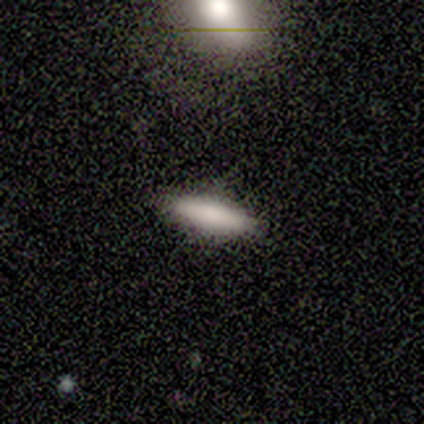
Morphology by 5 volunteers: This is likely a smooth galaxy (60%). How rounded: likely cigar-shaped (67%). Merging: clearly none (100%).